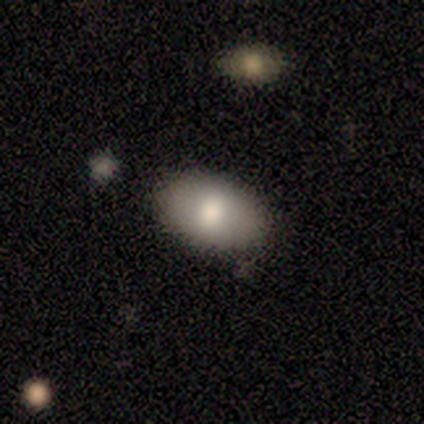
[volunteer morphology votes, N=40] This is likely a smooth galaxy (78%). How rounded: clearly in between (87%). Merging: clearly none (84%).